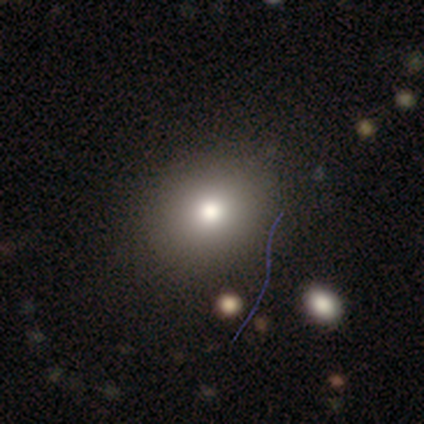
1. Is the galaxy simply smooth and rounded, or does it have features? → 60% smooth, 40% featured or disk, 0% star or artifact.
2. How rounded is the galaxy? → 67% round, 33% in between, 0% cigar-shaped.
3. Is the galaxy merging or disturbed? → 100% none, 0% minor disturbance, 0% major disturbance, 0% merger.